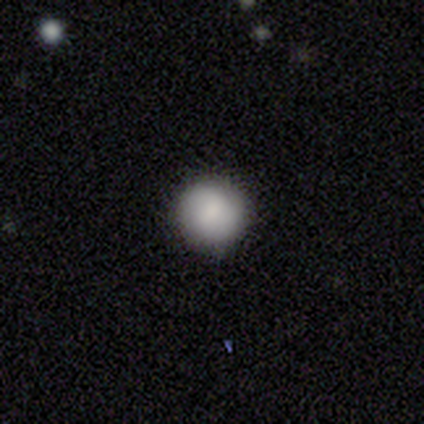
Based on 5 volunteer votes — Q: Smooth or featured?
A: smooth (80%); runner-up: star or artifact (20%)
Q: How rounded?
A: round (100%)
Q: Merging?
A: none (75%); runner-up: minor disturbance (25%)